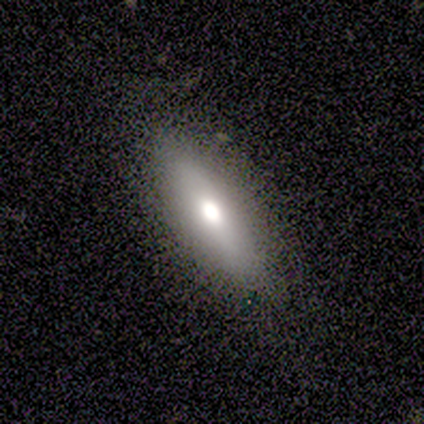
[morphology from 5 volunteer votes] Smooth or featured: smooth — 60% (featured or disk — 40%)
How rounded: in between — 67% (cigar-shaped — 33%)
Merging: none — 100%